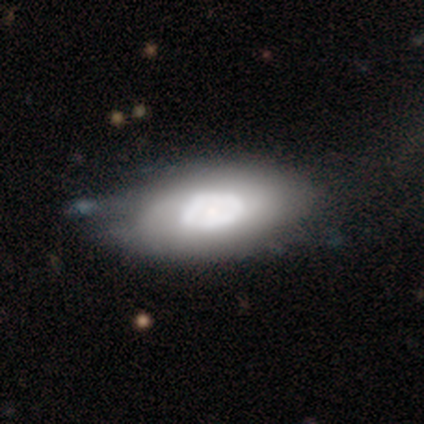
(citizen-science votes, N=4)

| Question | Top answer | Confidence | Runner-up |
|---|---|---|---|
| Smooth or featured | smooth | 75% | star or artifact (25%) |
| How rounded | in between | 67% | round (33%) |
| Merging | none | 100% | — |